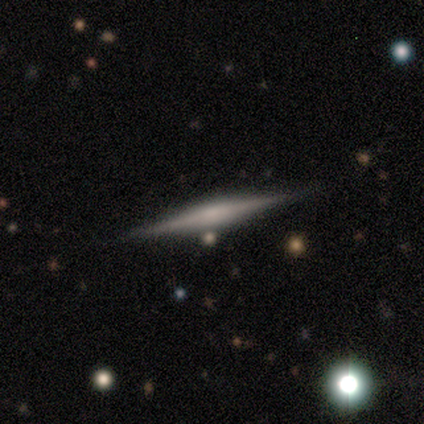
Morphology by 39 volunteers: type=featured or disk (90%); edge-on=yes (97%); edge-on bulge=rounded (44%); merging=none (87%).